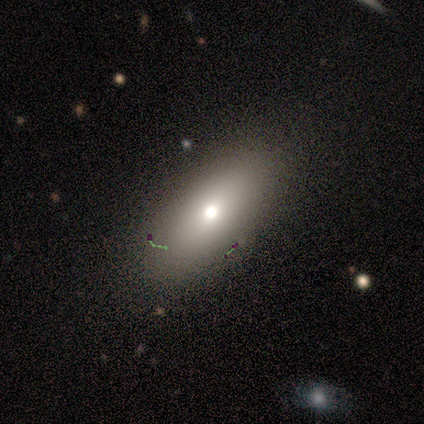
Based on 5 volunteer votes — Smooth or featured? 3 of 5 (60%) said smooth. How rounded? 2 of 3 (67%) said in between. Merging? 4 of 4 (100%) said none.